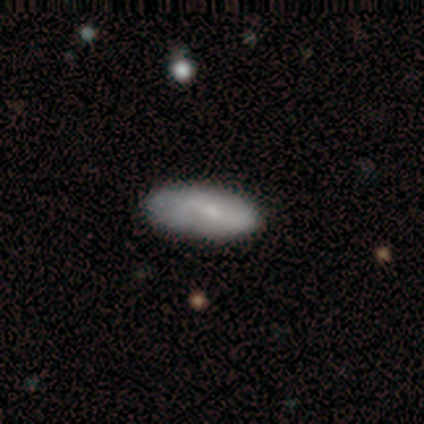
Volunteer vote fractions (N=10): Q: Smooth or featured?
A: featured or disk (60%); runner-up: smooth (40%)
Q: Edge-on disk?
A: no (100%)
Q: Bar?
A: weak (67%); runner-up: strong (17%)
Q: Spiral arms?
A: yes (50%); tied with: no (50%)
Q: Spiral winding?
A: loose (67%); runner-up: medium (33%)
Q: Spiral arm count?
A: 1 (33%); tied with: 2 (33%); can't tell (33%)
Q: Bulge size?
A: small (67%); runner-up: moderate (33%)
Q: Merging?
A: none (70%); runner-up: minor disturbance (20%)